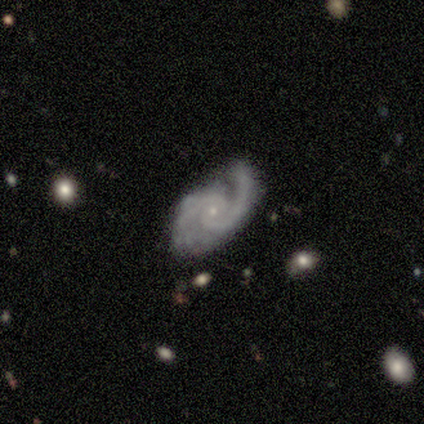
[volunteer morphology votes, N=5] This appears to be a featured or disk galaxy (100%) with no bar (60%), 2 (80%) medium (80%) spiral arms (100%) and a small central bulge (100%). Merging: none (80%).